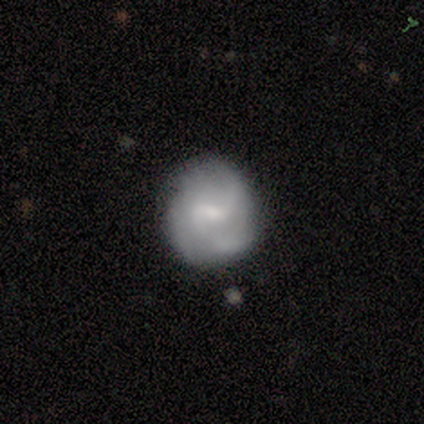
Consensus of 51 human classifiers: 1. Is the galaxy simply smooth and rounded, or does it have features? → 73% featured or disk, 22% smooth, 6% star or artifact.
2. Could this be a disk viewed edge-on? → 100% no, 0% yes.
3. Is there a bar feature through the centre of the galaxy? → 65% weak, 19% no, 16% strong.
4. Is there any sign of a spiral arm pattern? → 81% yes, 19% no.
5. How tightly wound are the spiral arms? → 63% medium, 20% loose, 17% tight.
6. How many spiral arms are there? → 53% 2, 30% 3, 13% can't tell, 3% 1, 0% 4, 0% more than 4.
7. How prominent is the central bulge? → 49% small, 35% moderate, 14% none, 3% large, 0% dominant.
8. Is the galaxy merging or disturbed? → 65% none, 27% minor disturbance, 6% major disturbance, 2% merger.